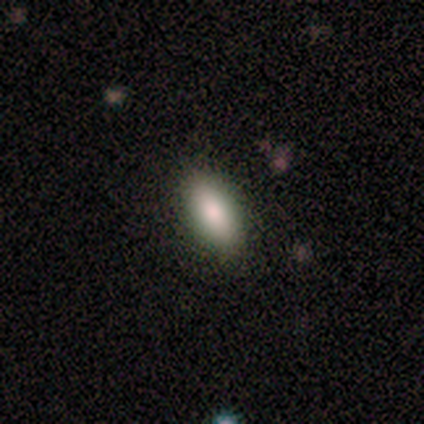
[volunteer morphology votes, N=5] smooth_or_featured: smooth (p=0.80) [alt: featured or disk p=0.20]
how_rounded: in between (p=0.75) [alt: round p=0.25]
merging: none (p=0.80) [alt: minor disturbance p=0.20]